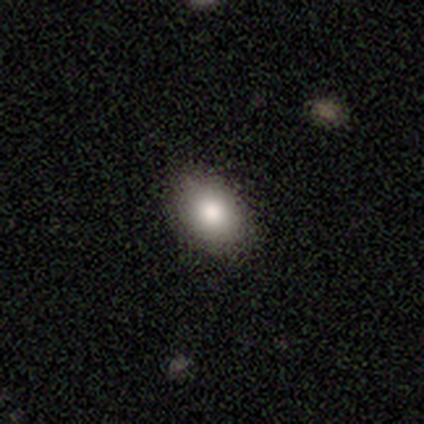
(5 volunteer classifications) smooth 100%, featured or disk 0%, star or artifact 0%. Down the decision tree: how rounded — in between (80%); merging — none (100%).